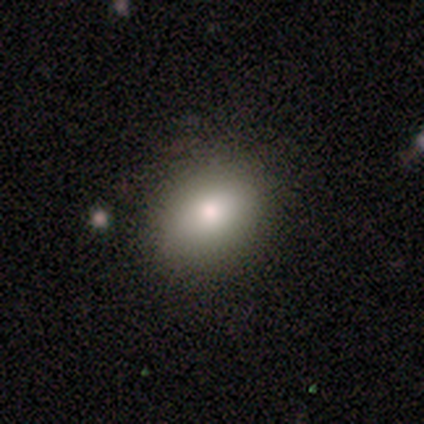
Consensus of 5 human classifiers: Smooth or featured? smooth (100%)
How rounded? in between (80%)
Merging? none (100%)